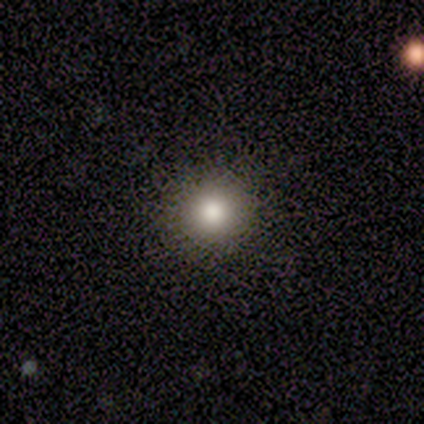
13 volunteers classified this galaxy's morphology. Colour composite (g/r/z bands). It shows a smooth galaxy with no disk features (77%) that is round (90%). Merging: none (100%).